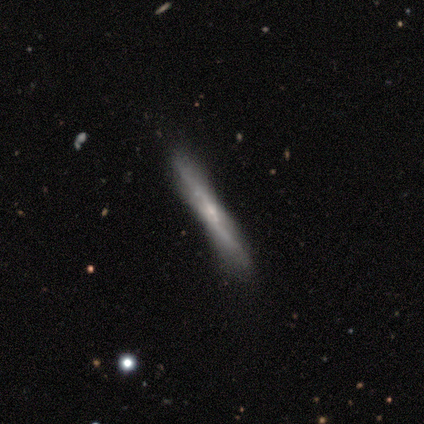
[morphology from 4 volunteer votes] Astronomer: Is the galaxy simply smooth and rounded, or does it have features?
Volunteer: featured or disk — 75%.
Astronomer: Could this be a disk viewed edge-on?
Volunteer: yes — 100%.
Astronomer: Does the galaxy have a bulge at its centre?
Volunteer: none — 67%.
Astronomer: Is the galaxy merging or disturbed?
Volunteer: none — 50%, tied with minor disturbance at 50%.